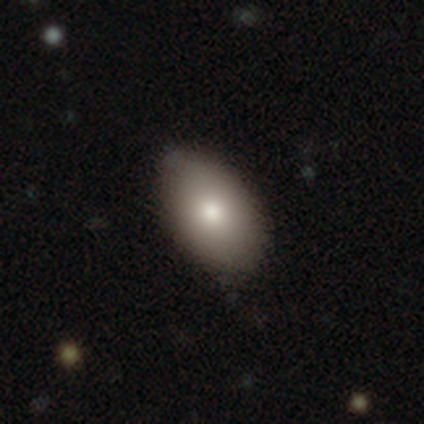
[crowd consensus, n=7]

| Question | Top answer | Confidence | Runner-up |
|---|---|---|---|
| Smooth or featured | smooth | 86% | featured or disk (14%) |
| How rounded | in between | 100% | — |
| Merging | none | 86% | minor disturbance (14%) |